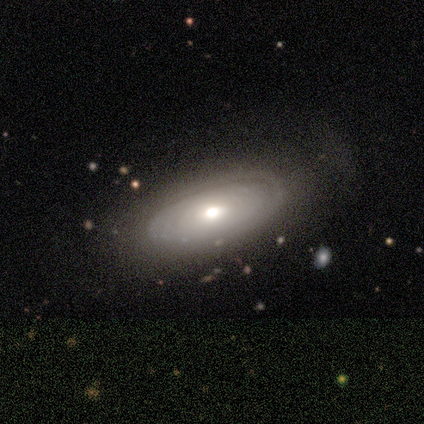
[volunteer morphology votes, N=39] smooth-or-featured: featured or disk: 64% | smooth: 33% | star or artifact: 3%
  disk-edge-on: no: 92% | yes: 8%
    bar: no: 78% | weak: 22% | strong: 0%
    has-spiral-arms: yes: 74% | no: 26%
      spiral-winding: tight: 88% | loose: 12% | medium: 0%
      spiral-arm-count: can't tell: 71% | 1: 24% | 4: 6% | 2: 0% | 3: 0% | more than 4: 0%
    bulge-size: moderate: 57% | large: 30% | small: 9% | none: 4% | dominant: 0%
  merging: none: 84% | minor disturbance: 8% | major disturbance: 8% | merger: 0%